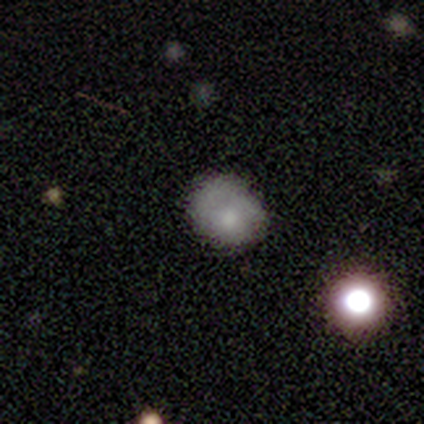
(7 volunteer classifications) A smooth galaxy with no disk features (71%) that is round (60%).

Vote fractions:
- Smooth or featured? smooth: 71% / featured or disk: 14% / star or artifact: 14%
- How rounded? round: 60% / in between: 40% / cigar-shaped: 0%
- Merging? none: 83% / minor disturbance: 17% / major disturbance: 0% / merger: 0%